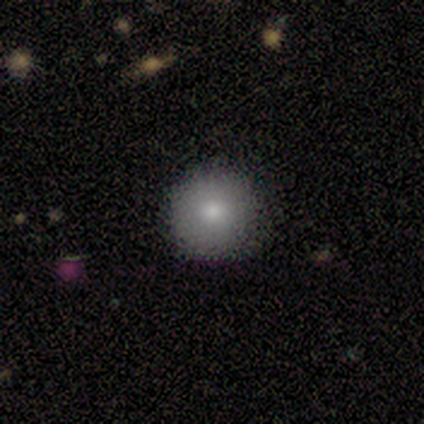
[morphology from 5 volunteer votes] Overall: smooth (40%, tied with featured or disk). How rounded: round (100%). Merging: none (50%; minor disturbance 25%).